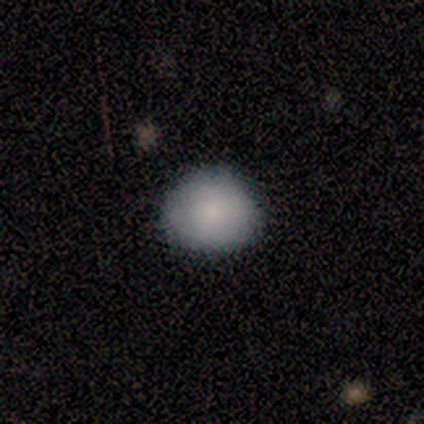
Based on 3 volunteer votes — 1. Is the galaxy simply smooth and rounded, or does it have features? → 67% smooth, 33% star or artifact, 0% featured or disk.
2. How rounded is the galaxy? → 100% round, 0% in between, 0% cigar-shaped.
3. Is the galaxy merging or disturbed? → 100% none, 0% minor disturbance, 0% major disturbance, 0% merger.